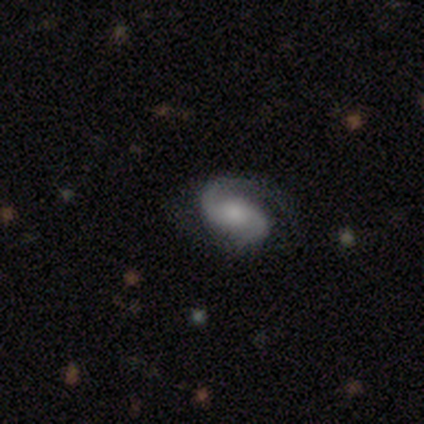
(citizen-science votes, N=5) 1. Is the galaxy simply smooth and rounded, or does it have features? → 60% featured or disk, 40% smooth, 0% star or artifact.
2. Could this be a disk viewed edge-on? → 100% no, 0% yes.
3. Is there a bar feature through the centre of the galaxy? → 67% no, 33% weak, 0% strong.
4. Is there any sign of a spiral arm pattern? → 100% yes, 0% no.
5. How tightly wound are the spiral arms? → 33% tight (tied), 33% medium (tied), 33% loose (tied).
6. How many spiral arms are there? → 67% 2, 33% can't tell, 0% 1, 0% 3, 0% 4, 0% more than 4.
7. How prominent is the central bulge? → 67% small, 33% moderate, 0% dominant, 0% large, 0% none.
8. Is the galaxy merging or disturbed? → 80% none, 20% major disturbance, 0% minor disturbance, 0% merger.